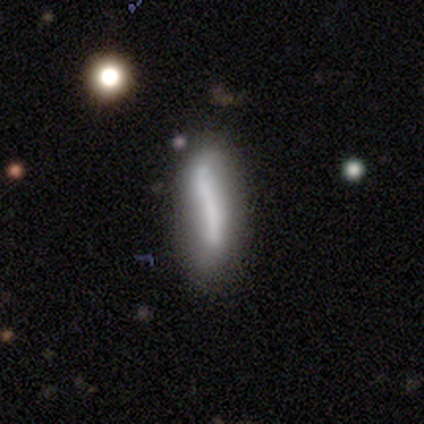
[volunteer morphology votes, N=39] A smooth galaxy with no disk features (62%) that is cigar-shaped (67%).

Vote fractions:
- Smooth or featured? smooth: 62% / featured or disk: 31% / star or artifact: 8%
- How rounded? cigar-shaped: 67% / in between: 29% / round: 4%
- Merging? none: 33% / merger: 31% / minor disturbance: 28% / major disturbance: 8%